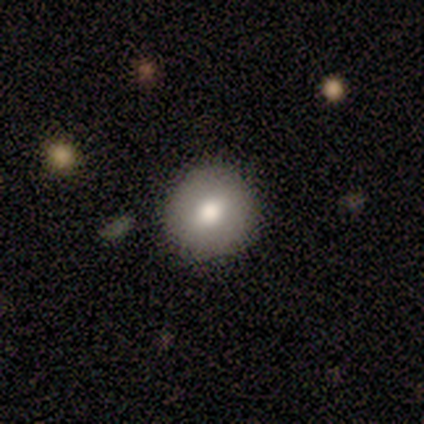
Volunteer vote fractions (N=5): smooth 60%, featured or disk 40%, star or artifact 0%. Down the decision tree: how rounded — round (100%); merging — none (80%).